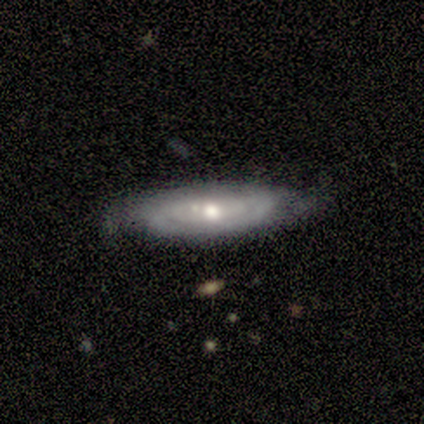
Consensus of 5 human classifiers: A featured or disk galaxy (100%) with no bar (67%), tight (100%) spiral arms (100%) and a small central bulge (67%). Merging: none (80%).